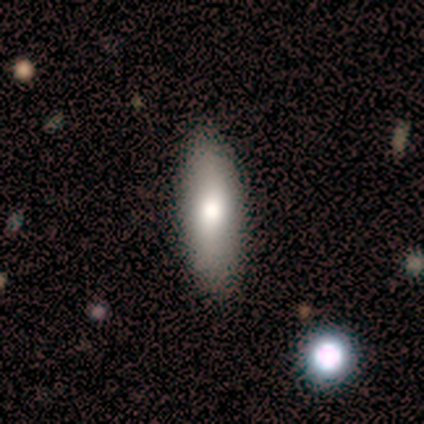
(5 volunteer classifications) Smooth or featured: smooth — 80% (featured or disk — 20%)
How rounded: in between — 50% (tied with cigar-shaped — 50%)
Merging: none — 100%